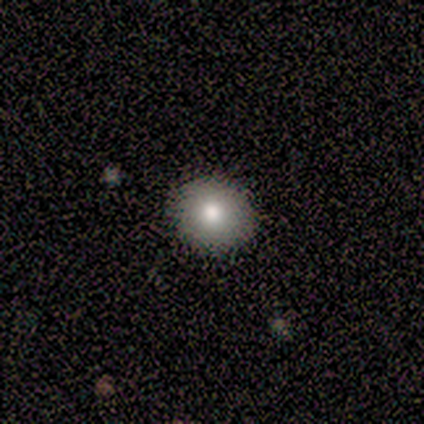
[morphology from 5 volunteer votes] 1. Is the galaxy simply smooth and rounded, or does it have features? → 60% smooth, 20% featured or disk, 20% star or artifact.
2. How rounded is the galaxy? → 100% round, 0% in between, 0% cigar-shaped.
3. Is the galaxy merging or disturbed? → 100% none, 0% minor disturbance, 0% major disturbance, 0% merger.